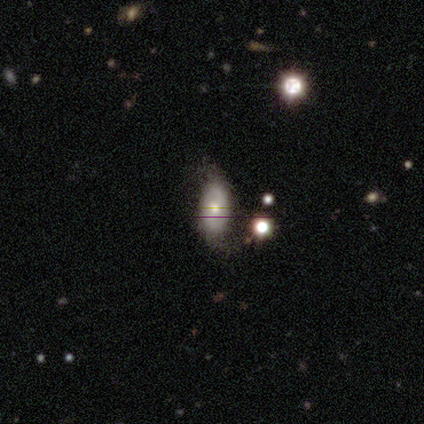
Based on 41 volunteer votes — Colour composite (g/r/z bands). It shows a smooth galaxy with no disk features (51%) that is in between round and cigar-shaped (95%). Merging: none (53%).